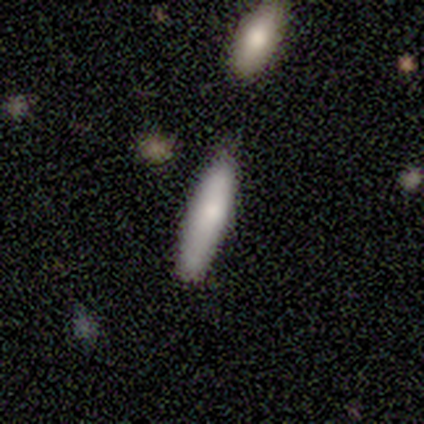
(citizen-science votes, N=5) Morphology: type=smooth (100%); roundness=cigar-shaped (80%); merging=none (80%).